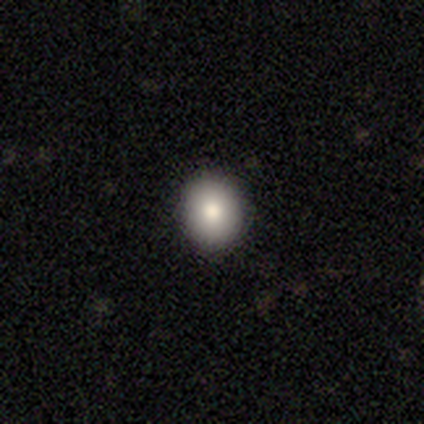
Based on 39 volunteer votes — Q: Smooth or featured?
A: smooth (77%); runner-up: featured or disk (15%)
Q: How rounded?
A: round (67%); runner-up: in between (30%)
Q: Merging?
A: none (92%); runner-up: minor disturbance (6%)